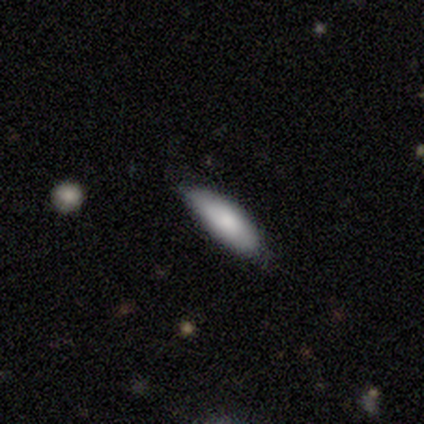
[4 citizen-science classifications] smooth-or-featured: smooth: 75% | featured or disk: 25% | star or artifact: 0%
  how-rounded: cigar-shaped: 100% | round: 0% | in between: 0%
  merging: none: 50% (tied) | minor disturbance: 50% (tied) | major disturbance: 0% | merger: 0%